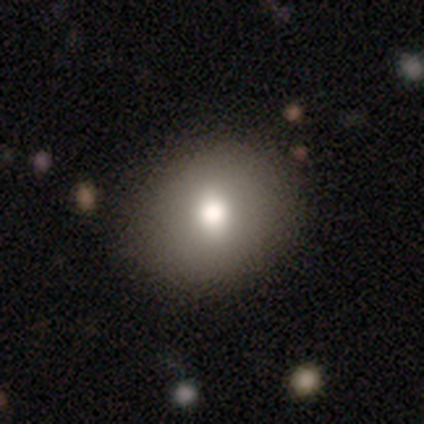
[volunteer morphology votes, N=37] Smooth or featured? 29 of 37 (78%) said smooth. How rounded? 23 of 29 (79%) said round. Merging? 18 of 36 (50%) said none.